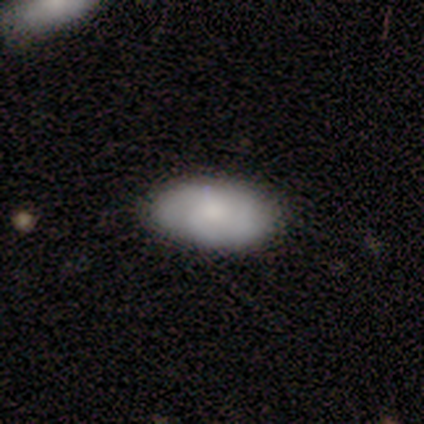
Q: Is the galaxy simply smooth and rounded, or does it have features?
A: featured or disk — 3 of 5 (60%).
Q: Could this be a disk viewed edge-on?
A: no — 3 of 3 (100%).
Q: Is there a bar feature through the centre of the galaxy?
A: no — 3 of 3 (100%).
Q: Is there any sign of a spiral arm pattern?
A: yes — 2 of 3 (67%).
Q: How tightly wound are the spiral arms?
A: tight — 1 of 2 (50%, tied with loose).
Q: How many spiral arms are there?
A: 2 — 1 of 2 (50%, tied with 3).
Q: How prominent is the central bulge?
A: small — 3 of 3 (100%).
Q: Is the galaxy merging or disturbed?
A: none — 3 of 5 (60%).